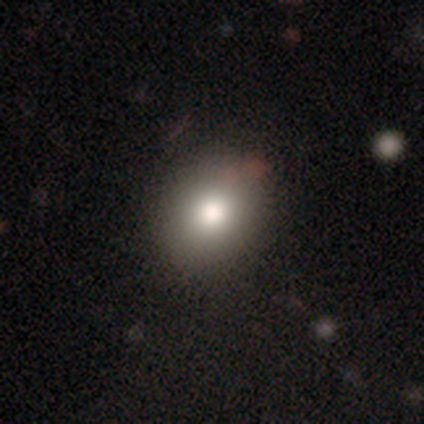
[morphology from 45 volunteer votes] Q: Smooth or featured?
A: smooth (87%); runner-up: featured or disk (9%)
Q: How rounded?
A: round (56%); runner-up: in between (44%)
Q: Merging?
A: none (70%); runner-up: minor disturbance (5%)